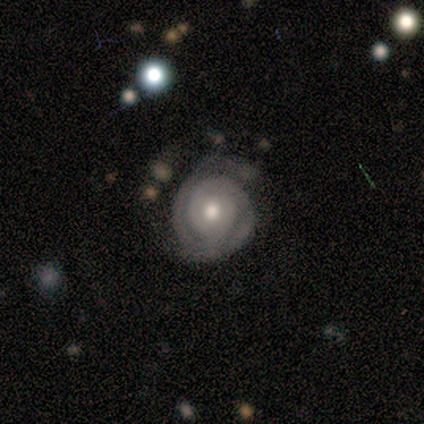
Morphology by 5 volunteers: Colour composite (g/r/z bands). It shows a featured or disk galaxy (100%) with no bar (100%), 2 (67%) tight (67%) spiral arms (60%) and a moderate central bulge (100%). Merging: none (60%).